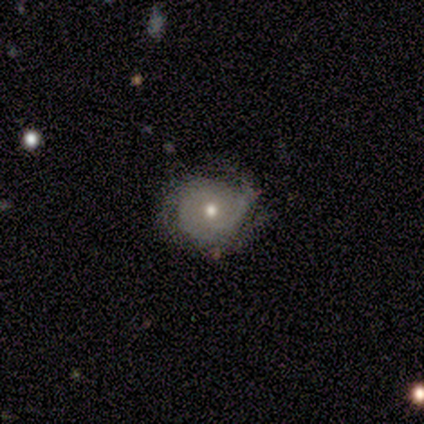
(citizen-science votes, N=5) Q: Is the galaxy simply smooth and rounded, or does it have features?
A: smooth — 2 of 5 (40%, tied with star or artifact).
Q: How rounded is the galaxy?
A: round — 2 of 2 (100%).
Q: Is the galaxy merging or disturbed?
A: none — 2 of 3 (67%).